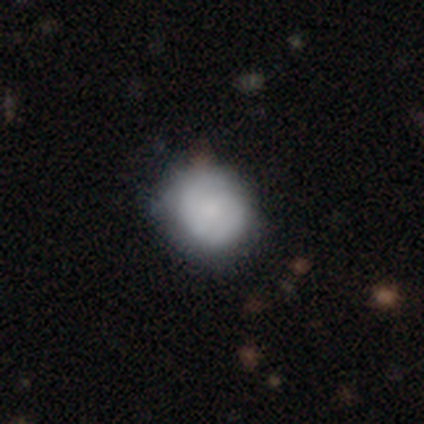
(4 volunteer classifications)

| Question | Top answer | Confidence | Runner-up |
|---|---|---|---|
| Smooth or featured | smooth | 75% | star or artifact (25%) |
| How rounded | round | 67% | in between (33%) |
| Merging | none | 67% | minor disturbance (33%) |